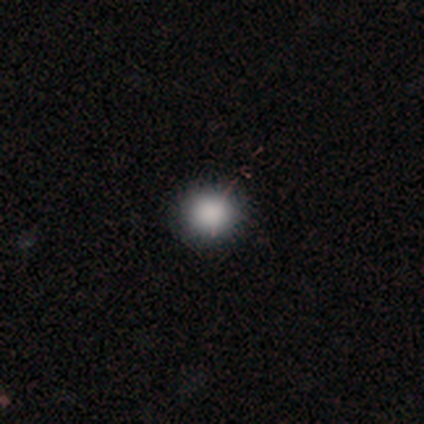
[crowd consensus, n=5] Smooth or featured?
  - smooth: 100% *
  - featured or disk: 0%
  - star or artifact: 0%
How rounded?
  - round: 100% *
  - in between: 0%
  - cigar-shaped: 0%
Merging?
  - none: 80% *
  - minor disturbance: 20%
  - major disturbance: 0%
  - merger: 0%